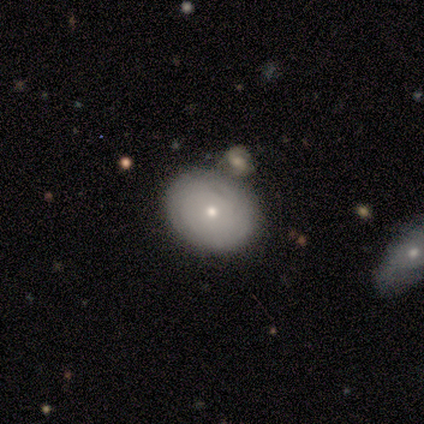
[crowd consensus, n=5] Smooth or featured: featured or disk — 60% (smooth — 40%)
Edge-on disk: no — 100%
Bar: no — 100%
Spiral arms: yes — 67% (no — 33%)
Spiral winding: tight — 100%
Spiral arm count: can't tell — 100%
Bulge size: small — 100%
Merging: merger — 60% (none — 40%)